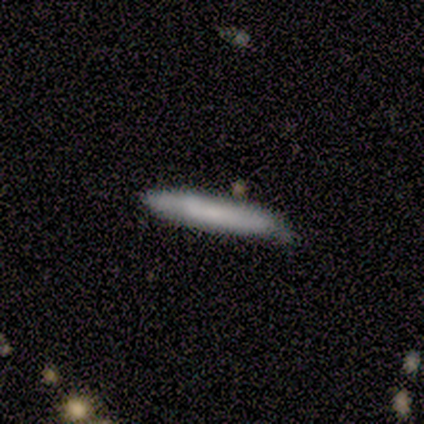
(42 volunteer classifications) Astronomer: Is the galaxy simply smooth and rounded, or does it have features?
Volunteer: smooth — 67%.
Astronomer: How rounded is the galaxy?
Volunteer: cigar-shaped — 100%.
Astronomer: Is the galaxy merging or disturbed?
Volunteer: none — 67%.